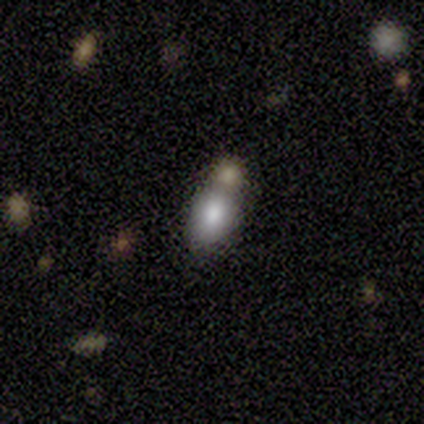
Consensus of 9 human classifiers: This appears to be a smooth galaxy with no disk features (89%) that is in between round and cigar-shaped (75%). Merging: merger (75%).